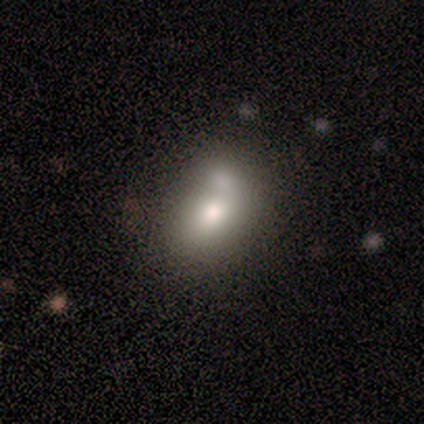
Q: Smooth or featured?
A: smooth (91%); runner-up: star or artifact (9%)
Q: How rounded?
A: in between (100%)
Q: Merging?
A: none (40%); runner-up: merger (30%)